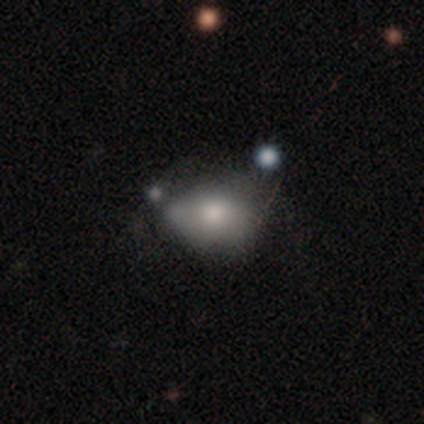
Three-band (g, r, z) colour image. It shows a smooth galaxy with no disk features (60%) that is in between round and cigar-shaped (67%). Merging: minor disturbance (40%).